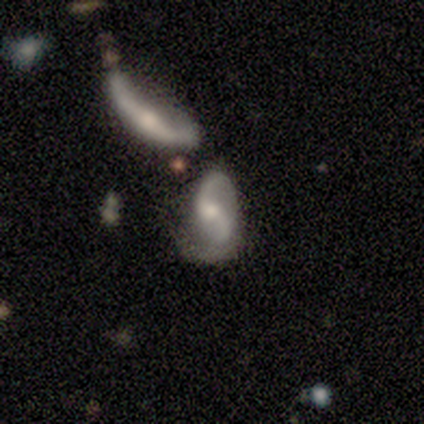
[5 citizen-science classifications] smooth-or-featured: featured or disk: 80% | smooth: 20% | star or artifact: 0%
  disk-edge-on: no: 100% | yes: 0%
    bar: no: 50% | strong: 25% | weak: 25%
    has-spiral-arms: yes: 100% | no: 0%
      spiral-winding: medium: 75% | loose: 25% | tight: 0%
      spiral-arm-count: 1: 50% (tied) | 2: 50% (tied) | 3: 0% | 4: 0% | more than 4: 0% | can't tell: 0%
    bulge-size: moderate: 100% | dominant: 0% | large: 0% | small: 0% | none: 0%
  merging: merger: 80% | major disturbance: 20% | none: 0% | minor disturbance: 0%